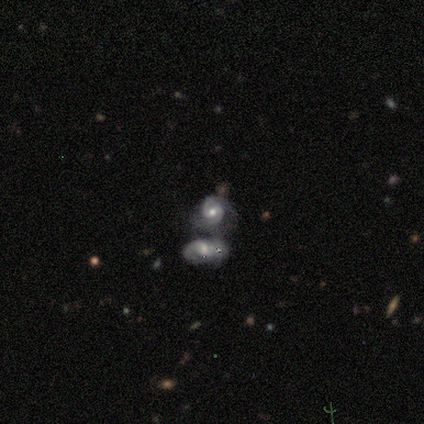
A featured or disk galaxy (78%) with no bar (45%), 2 (86%) tight (69%) spiral arms (94%) and a moderate central bulge (71%). Merging: merger (74%).